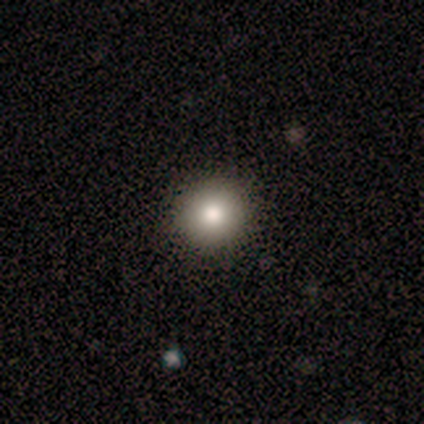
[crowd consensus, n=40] smooth 88%, featured or disk 8%, star or artifact 5%. Down the decision tree: how rounded — round (100%); merging — none (92%).